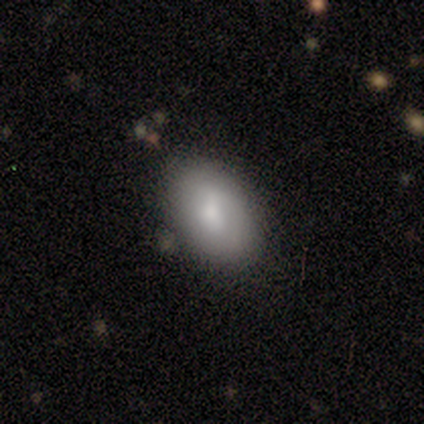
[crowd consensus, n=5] Smooth or featured? 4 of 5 (80%) said smooth. How rounded? 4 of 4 (100%) said in between. Merging? 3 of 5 (60%) said minor disturbance.